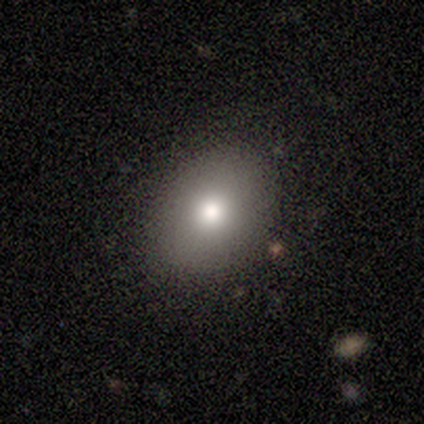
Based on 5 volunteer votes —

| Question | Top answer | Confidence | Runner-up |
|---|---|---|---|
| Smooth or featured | smooth | 60% | featured or disk (40%) |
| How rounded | in between | 67% | round (33%) |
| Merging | none | 80% | minor disturbance (20%) |